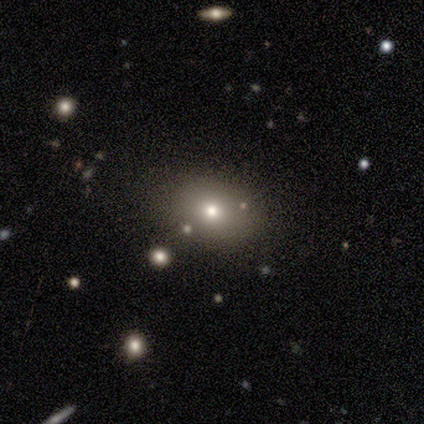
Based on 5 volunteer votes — A smooth galaxy with no disk features (80%) that is in between round and cigar-shaped (75%). Merging: none (75%).